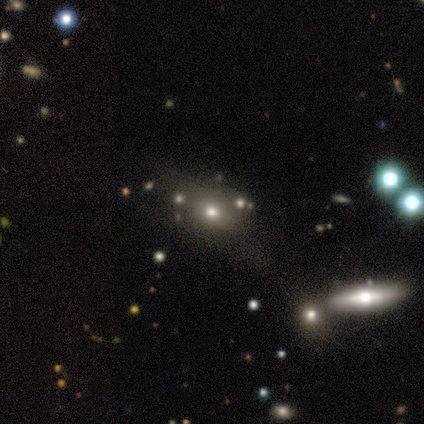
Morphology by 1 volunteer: smooth-or-featured: featured or disk: 100% | smooth: 0% | star or artifact: 0%
  disk-edge-on: no: 100% | yes: 0%
    bar: no: 100% | strong: 0% | weak: 0%
    has-spiral-arms: no: 100% | yes: 0%
    bulge-size: moderate: 100% | dominant: 0% | large: 0% | small: 0% | none: 0%
  merging: major disturbance: 100% | none: 0% | minor disturbance: 0% | merger: 0%